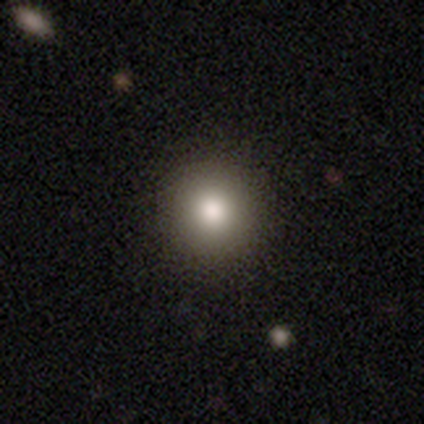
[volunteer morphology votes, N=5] Smooth or featured: smooth — 60% (star or artifact — 40%)
How rounded: round — 100%
Merging: none — 100%